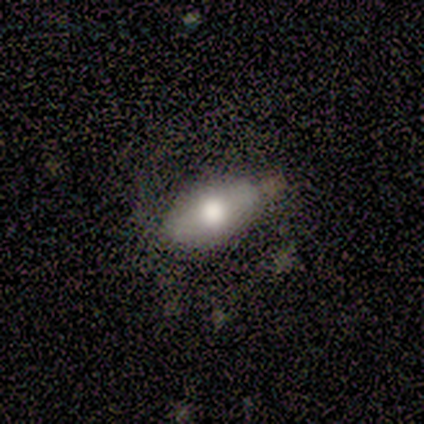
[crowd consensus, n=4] Q: Smooth or featured?
A: smooth (100%)
Q: How rounded?
A: in between (75%); runner-up: cigar-shaped (25%)
Q: Merging?
A: none (50%); runner-up: minor disturbance (25%)